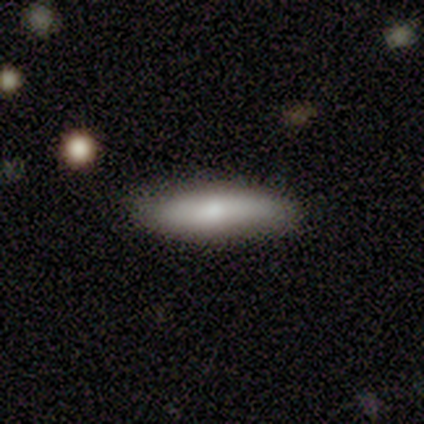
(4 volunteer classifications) Smooth or featured: smooth — 100%
How rounded: cigar-shaped — 100%
Merging: none — 75% (minor disturbance — 25%)